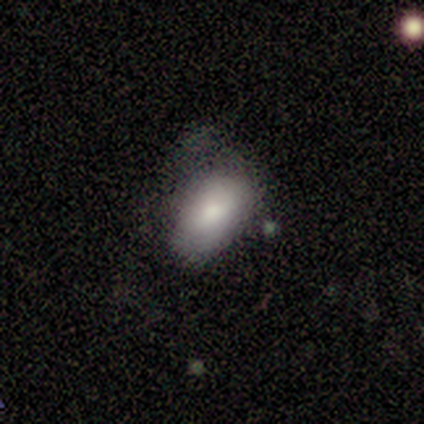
Smooth or featured?
  - smooth: 100% *
  - featured or disk: 0%
  - star or artifact: 0%
How rounded?
  - in between: 100% *
  - round: 0%
  - cigar-shaped: 0%
Merging?
  - none: 80% *
  - minor disturbance: 20%
  - major disturbance: 0%
  - merger: 0%